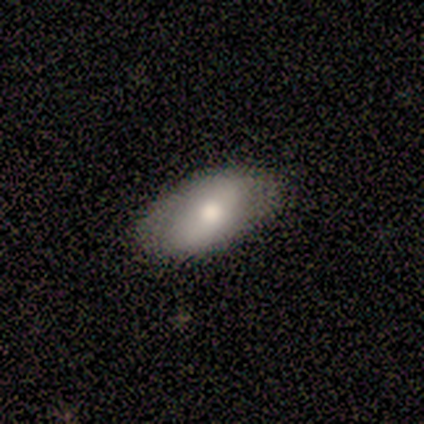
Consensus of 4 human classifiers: Overall: featured or disk (75%). Edge-on disk: no (100%). Bar: no (100%). Spiral arms: no (67%; yes 33%). Bulge size: moderate (67%; large 33%). Merging: minor disturbance (50%; none 25%).